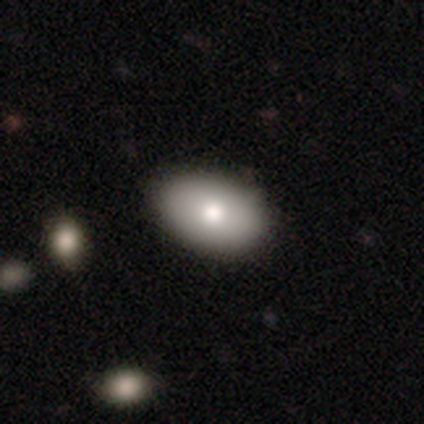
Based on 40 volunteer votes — A smooth galaxy with no disk features (82%) that is in between round and cigar-shaped (88%). Merging: none (64%).